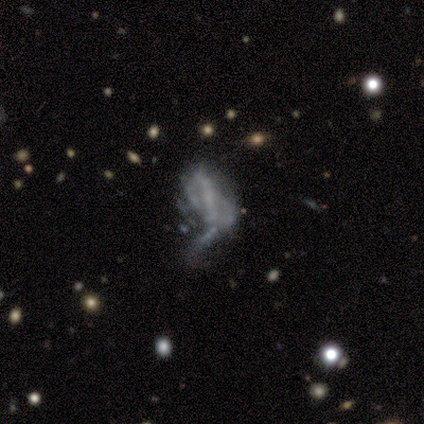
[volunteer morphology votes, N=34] This is likely a featured or disk galaxy (71%). It is clearly not viewed edge-on (100%). Bar: likely no (67%). Spiral arm pattern: likely no (79%). Central bulge: likely none (67%). Merging: possibly major disturbance (53%).